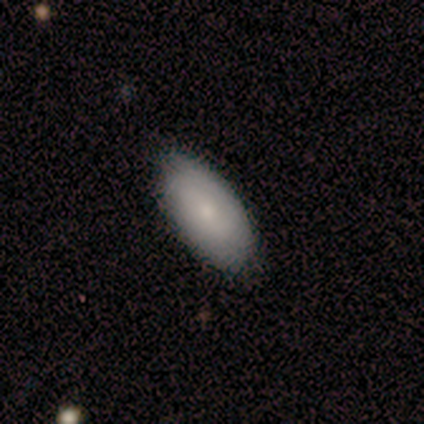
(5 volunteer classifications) Q: Smooth or featured?
A: smooth (100%)
Q: How rounded?
A: in between (100%)
Q: Merging?
A: none (100%)